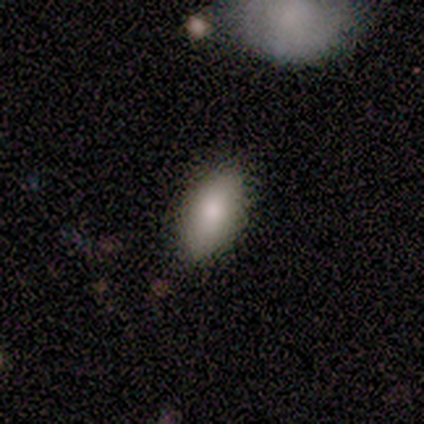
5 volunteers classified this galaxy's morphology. Overall: smooth (100%). How rounded: in between (80%). Merging: none (60%; minor disturbance 20%).